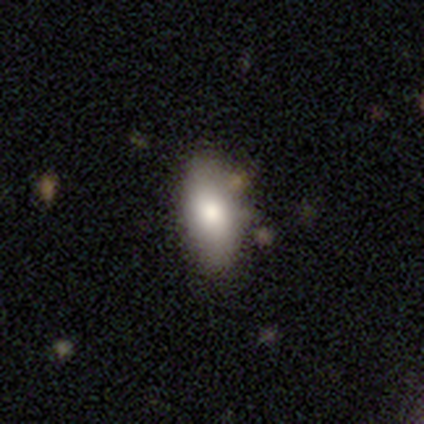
A smooth galaxy with no disk features (80%) that is in between round and cigar-shaped (100%).

Vote fractions:
- Smooth or featured? smooth: 80% / star or artifact: 20% / featured or disk: 0%
- How rounded? in between: 100% / round: 0% / cigar-shaped: 0%
- Merging? none: 100% / minor disturbance: 0% / major disturbance: 0% / merger: 0%